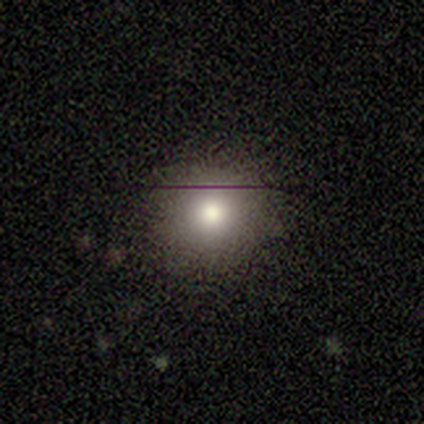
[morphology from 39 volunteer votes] Smooth or featured: smooth — 74% (star or artifact — 18%)
How rounded: round — 100%
Merging: none — 84% (minor disturbance — 12%)